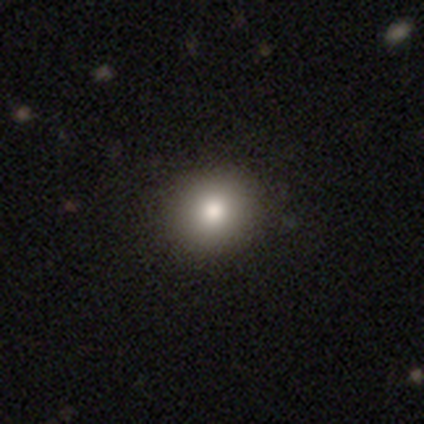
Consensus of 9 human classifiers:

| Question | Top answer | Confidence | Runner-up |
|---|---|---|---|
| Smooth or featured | smooth | 78% | featured or disk (11%) |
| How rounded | round | 100% | — |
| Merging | none | 100% | — |